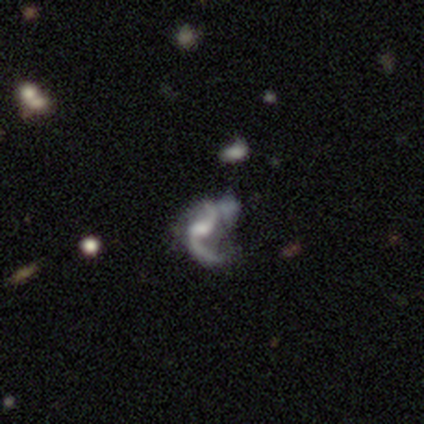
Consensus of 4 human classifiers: Overall: featured or disk (100%). Edge-on disk: no (100%). Bar: weak (50%, tied with no). Spiral arms: yes (100%). Spiral arm count: 2 (75%). Spiral winding: loose (100%). Bulge size: moderate (75%). Merging: none (50%; minor disturbance 25%).